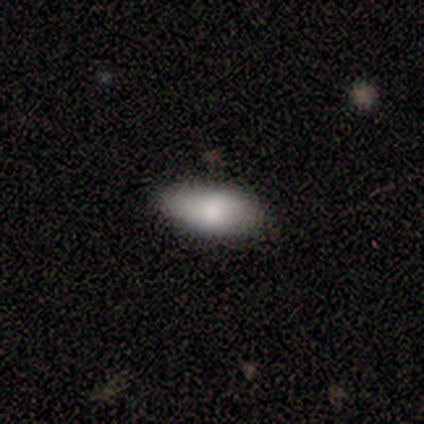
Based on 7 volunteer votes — smooth 100%, featured or disk 0%, star or artifact 0%. Down the decision tree: how rounded — in between (86%); merging — none (100%).